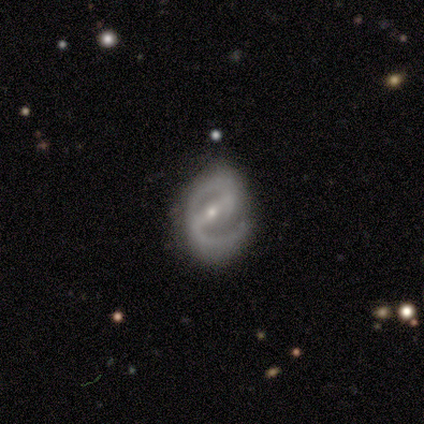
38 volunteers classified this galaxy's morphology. A featured or disk galaxy (92%) with a strong bar (71%), 2 (75%) medium (59%) spiral arms (94%) and a small central bulge (68%). Merging: none (55%).